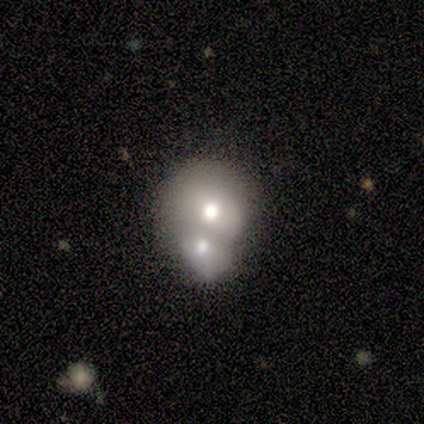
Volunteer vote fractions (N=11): Smooth or featured?
  - smooth: 82% *
  - featured or disk: 18%
  - star or artifact: 0%
How rounded?
  - round: 67% *
  - in between: 33%
  - cigar-shaped: 0%
Merging?
  - merger: 91% *
  - none: 9%
  - minor disturbance: 0%
  - major disturbance: 0%